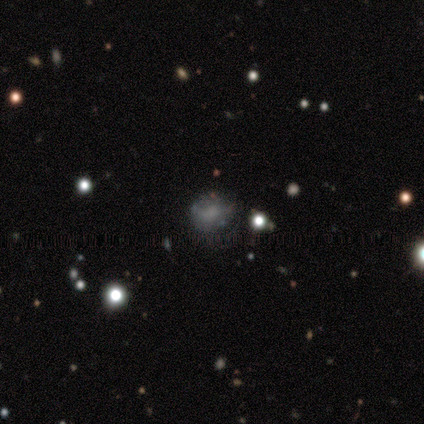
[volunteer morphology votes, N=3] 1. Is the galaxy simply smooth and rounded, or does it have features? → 67% smooth, 33% featured or disk, 0% star or artifact.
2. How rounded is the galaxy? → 100% round, 0% in between, 0% cigar-shaped.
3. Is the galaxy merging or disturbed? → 100% none, 0% minor disturbance, 0% major disturbance, 0% merger.